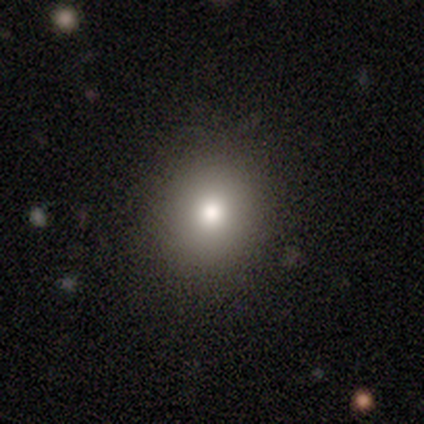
smooth 60%, star or artifact 40%, featured or disk 0%. Down the decision tree: how rounded — round (100%); merging — none (100%).